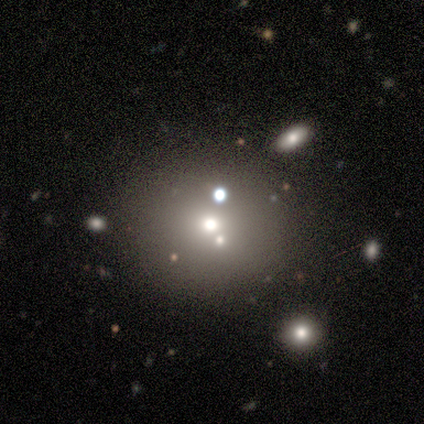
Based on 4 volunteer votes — Smooth or featured? 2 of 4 (50%, tied with featured or disk) said smooth. How rounded? 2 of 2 (100%) said round. Merging? 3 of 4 (75%) said none.